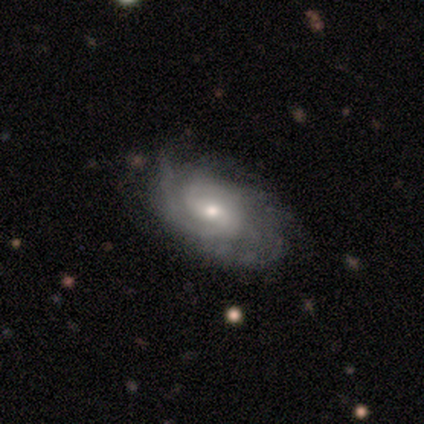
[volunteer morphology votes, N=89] Smooth or featured? featured or disk (87%)
Edge-on disk? no (92%)
Bar? weak (54%)
Spiral arms? yes (97%)
Spiral winding? tight (62%)
Spiral arm count? can't tell (41%)
Bulge size? small (58%)
Merging? none (67%)